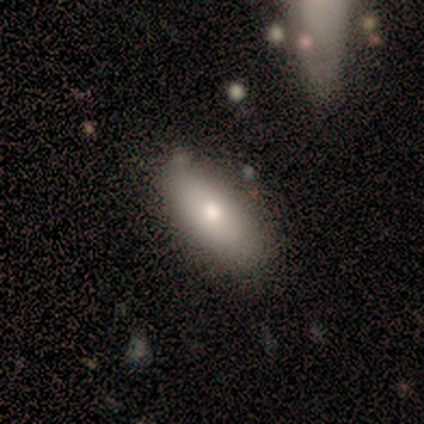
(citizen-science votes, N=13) smooth 92%, featured or disk 8%, star or artifact 0%. Down the decision tree: how rounded — in between (92%); merging — none (92%).